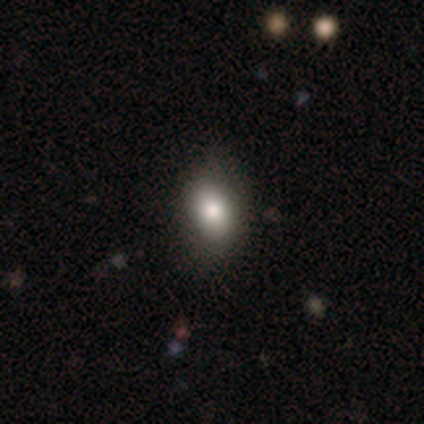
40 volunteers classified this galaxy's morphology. Smooth or featured: smooth — 68% (star or artifact — 18%)
How rounded: in between — 93% (round — 7%)
Merging: none — 70% (minor disturbance — 15%)